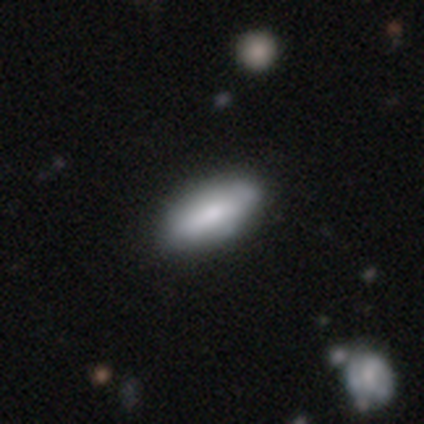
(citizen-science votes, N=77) smooth_or_featured: smooth (p=0.79) [alt: featured or disk p=0.19]
how_rounded: in between (p=0.87) [alt: cigar-shaped p=0.13]
merging: none (p=0.37) [alt: minor disturbance p=0.12]